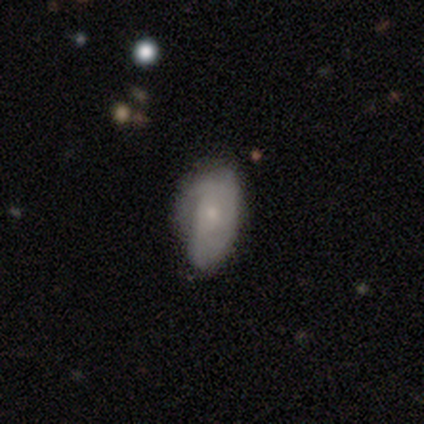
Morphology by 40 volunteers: featured or disk 52%, smooth 40%, star or artifact 8%. Down the decision tree: edge-on disk — no (100%); bar — no (81%); spiral arms — no (52%); bulge size — small (76%); merging — none (51%).